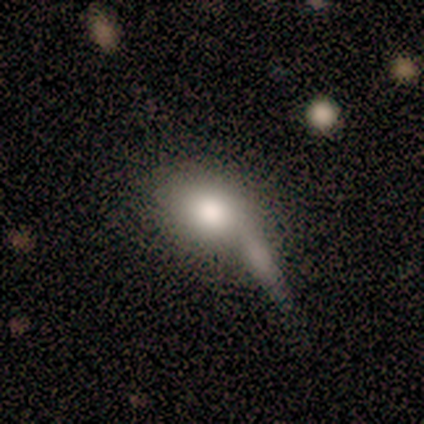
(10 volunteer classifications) Smooth or featured: smooth — 60% (featured or disk — 40%)
How rounded: in between — 67% (round — 33%)
Merging: none — 40% (minor disturbance — 30%)